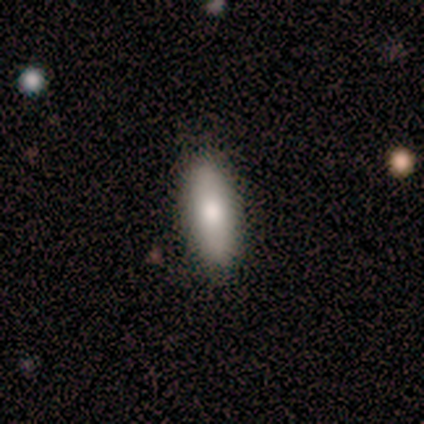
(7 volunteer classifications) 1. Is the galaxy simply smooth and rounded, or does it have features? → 100% smooth, 0% featured or disk, 0% star or artifact.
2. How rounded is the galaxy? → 57% in between, 43% cigar-shaped, 0% round.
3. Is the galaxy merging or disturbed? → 86% none, 14% minor disturbance, 0% major disturbance, 0% merger.